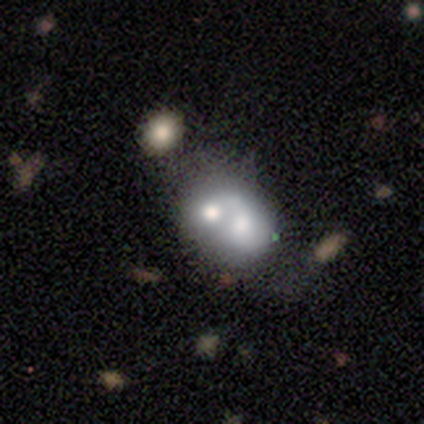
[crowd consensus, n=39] smooth_or_featured: smooth (p=0.49) [tied with: featured or disk p=0.49]
how_rounded: round (p=0.68) [alt: in between p=0.32]
merging: merger (p=0.68) [alt: none p=0.05]